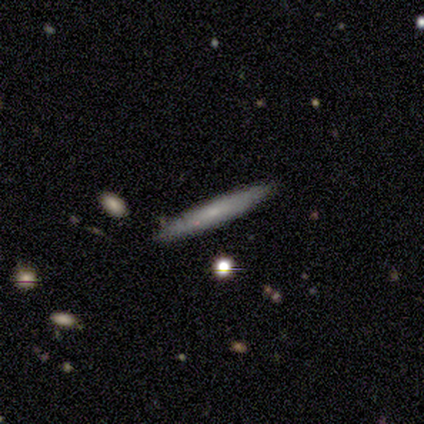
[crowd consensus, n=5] Smooth or featured? 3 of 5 (60%) said featured or disk. Edge-on disk? 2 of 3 (67%) said yes. Edge-on bulge? 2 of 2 (100%) said none. Merging? 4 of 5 (80%) said none.